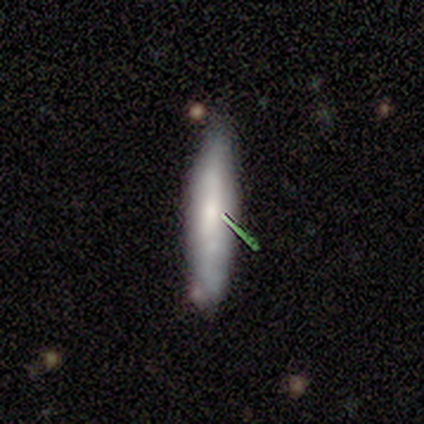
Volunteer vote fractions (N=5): Smooth or featured? 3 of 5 (60%) said smooth. How rounded? 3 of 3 (100%) said cigar-shaped. Merging? 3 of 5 (60%) said none.